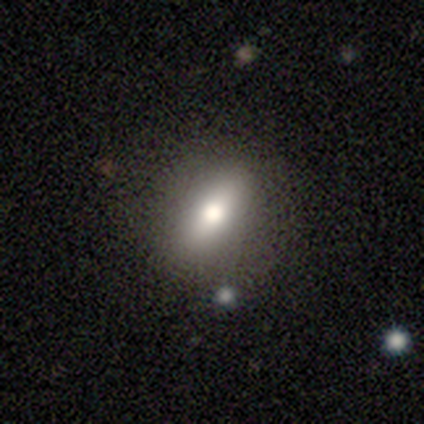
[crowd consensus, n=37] smooth 65%, featured or disk 30%, star or artifact 5%. Down the decision tree: how rounded — in between (58%); merging — none (74%).